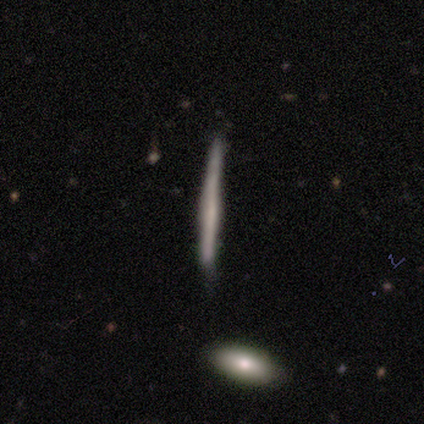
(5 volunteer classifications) A featured or disk galaxy (60%) viewed edge-on (100%) with no central bulge (100%). Merging: none (100%).